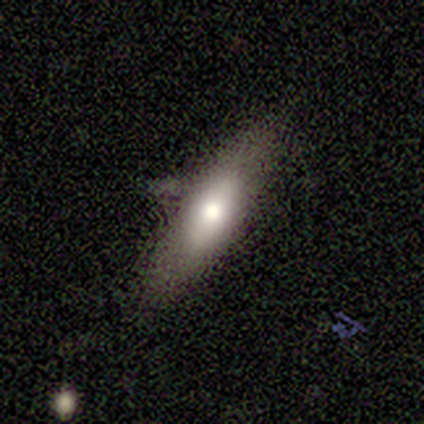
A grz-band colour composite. It shows a smooth galaxy with no disk features (80%) that is in between round and cigar-shaped (50%, tied with cigar-shaped). Merging: none (60%).